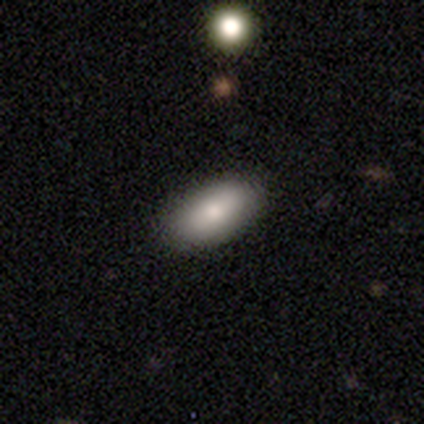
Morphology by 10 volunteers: smooth-or-featured: smooth: 90% | featured or disk: 10% | star or artifact: 0%
  how-rounded: in between: 78% | cigar-shaped: 22% | round: 0%
  merging: none: 80% | minor disturbance: 20% | major disturbance: 0% | merger: 0%